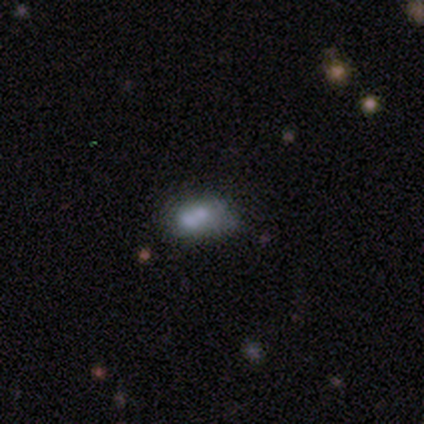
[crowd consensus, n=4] This appears to be a smooth galaxy with no disk features (75%) that is in between round and cigar-shaped (67%). Merging: minor disturbance (50%, tied with merger).